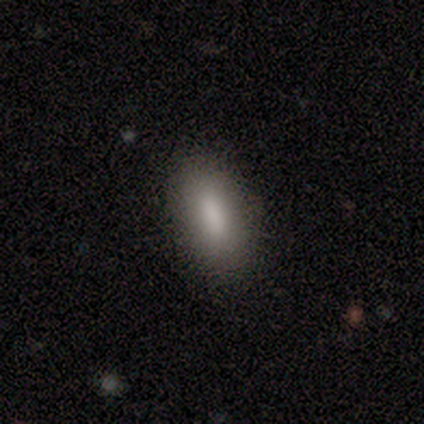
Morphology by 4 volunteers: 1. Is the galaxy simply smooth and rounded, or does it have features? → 75% smooth, 25% star or artifact, 0% featured or disk.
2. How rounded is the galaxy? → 100% in between, 0% round, 0% cigar-shaped.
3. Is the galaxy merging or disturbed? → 100% none, 0% minor disturbance, 0% major disturbance, 0% merger.